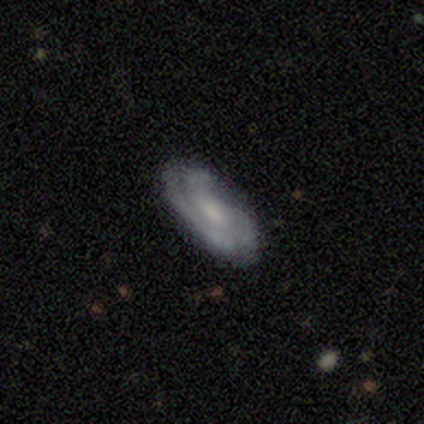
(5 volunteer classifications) Overall: featured or disk (100%). Edge-on disk: no (100%). Bar: no (60%; strong 20%). Spiral arms: yes (80%). Spiral arm count: 3 (50%, tied with can't tell). Spiral winding: tight (50%, tied with medium). Bulge size: moderate (40%, tied with small). Merging: none (40%, tied with major disturbance).